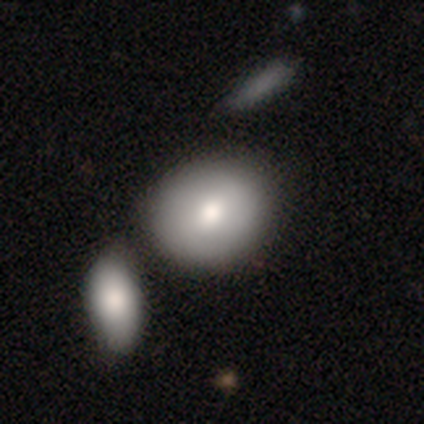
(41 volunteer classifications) Smooth or featured: smooth — 83% (featured or disk — 10%)
How rounded: round — 59% (in between — 41%)
Merging: merger — 47% (none — 45%)